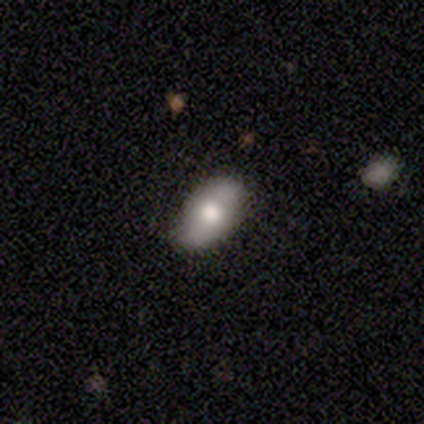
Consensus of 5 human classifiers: Smooth or featured: smooth — 60% (featured or disk — 40%)
How rounded: in between — 100%
Merging: none — 100%